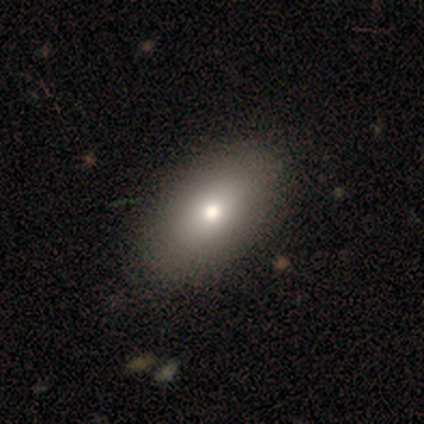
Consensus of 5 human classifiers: Smooth or featured: smooth — 80% (featured or disk — 20%)
How rounded: in between — 100%
Merging: none — 80% (minor disturbance — 20%)